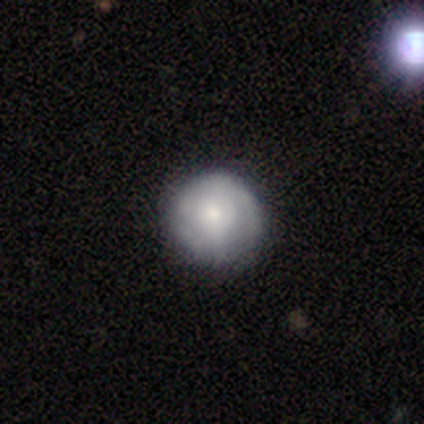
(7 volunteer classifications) Smooth or featured? 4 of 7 (57%) said featured or disk. Edge-on disk? 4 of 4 (100%) said no. Bar? 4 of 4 (100%) said no. Spiral arms? 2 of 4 (50%, tied with no) said yes. Spiral winding? 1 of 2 (50%, tied with medium) said tight. Spiral arm count? 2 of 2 (100%) said can't tell. Bulge size? 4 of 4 (100%) said small. Merging? 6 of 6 (100%) said none.